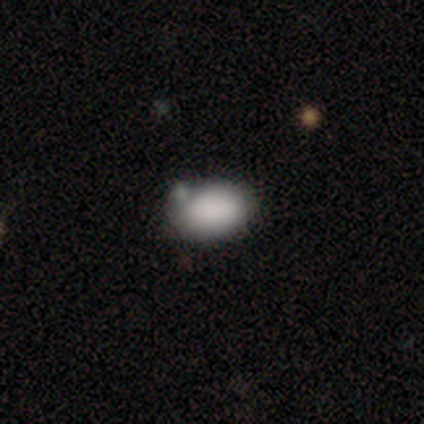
Morphology: type=smooth (40%, tied with featured or disk); roundness=in between (100%); merging=none (75%).